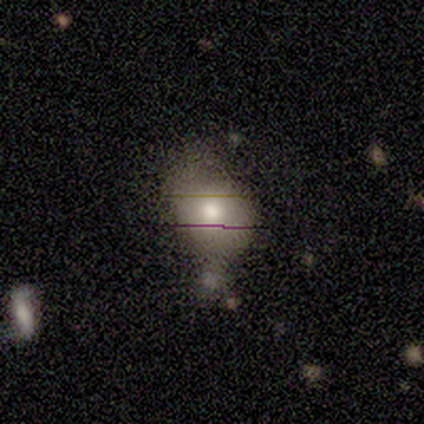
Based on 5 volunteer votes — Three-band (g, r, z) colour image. It shows a smooth galaxy with no disk features (40%, tied with featured or disk) that is round (50%, tied with in between). Merging: minor disturbance (50%).